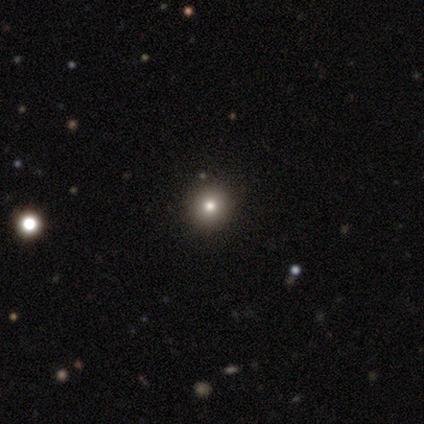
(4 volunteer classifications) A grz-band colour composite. It shows a smooth galaxy with no disk features (75%) that is round (100%). Merging: none (67%).